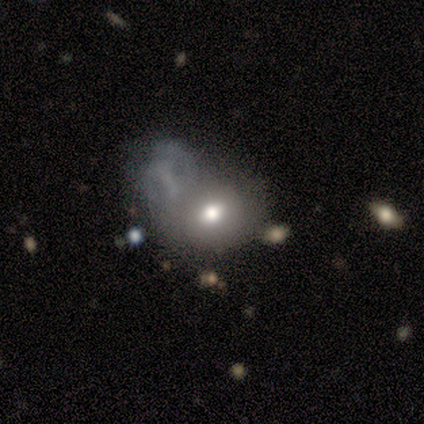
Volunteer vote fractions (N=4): smooth 50% (tied), featured or disk 50% (tied), star or artifact 0%. Down the decision tree: how rounded — round (100%); merging — major disturbance (50%, tied with merger).